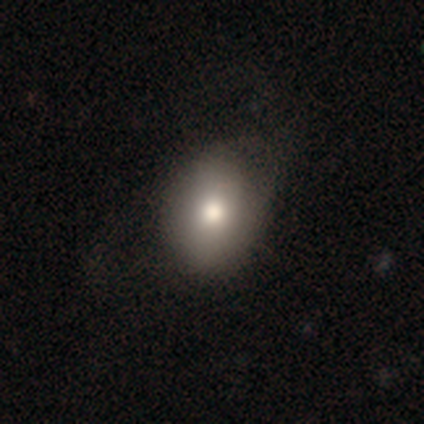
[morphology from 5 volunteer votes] smooth-or-featured: smooth: 80% | featured or disk: 20% | star or artifact: 0%
  how-rounded: round: 50% (tied) | in between: 50% (tied) | cigar-shaped: 0%
  merging: none: 60% | minor disturbance: 40% | major disturbance: 0% | merger: 0%